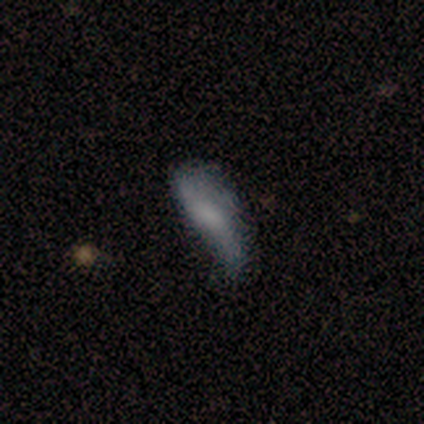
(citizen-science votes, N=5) Smooth or featured? smooth (100%)
How rounded? cigar-shaped (60%)
Merging? minor disturbance (60%)